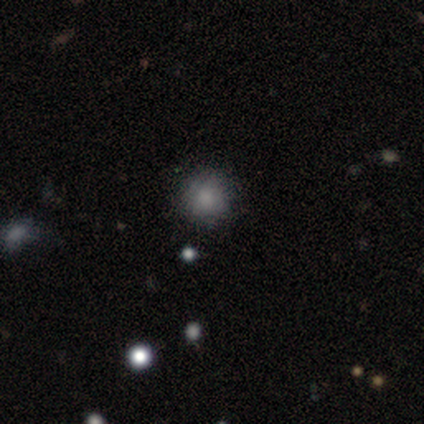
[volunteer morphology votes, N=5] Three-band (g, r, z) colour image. It shows a smooth galaxy with no disk features (40%, tied with featured or disk) that is round (100%). Merging: none (75%).